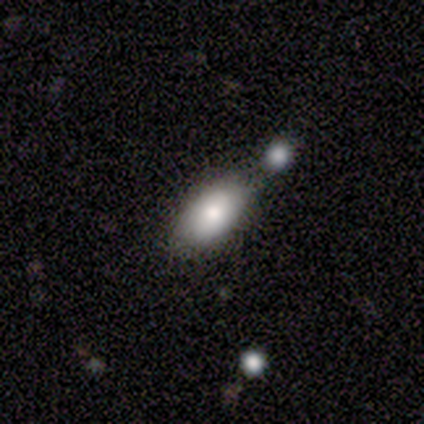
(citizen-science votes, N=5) This is likely a smooth galaxy (60%). How rounded: likely in between (67%). Merging: possibly none (50%, tied with minor disturbance).